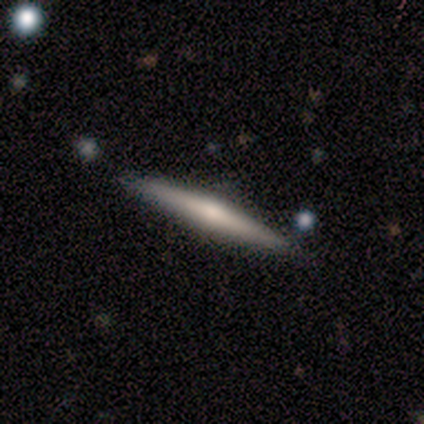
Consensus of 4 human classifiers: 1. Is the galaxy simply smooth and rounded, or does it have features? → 75% featured or disk, 25% smooth, 0% star or artifact.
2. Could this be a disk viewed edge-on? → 100% yes, 0% no.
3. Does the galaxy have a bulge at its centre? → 100% rounded, 0% boxy, 0% none.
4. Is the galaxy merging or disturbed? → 75% none, 25% minor disturbance, 0% major disturbance, 0% merger.